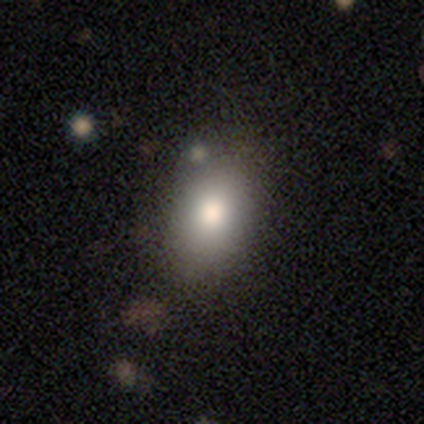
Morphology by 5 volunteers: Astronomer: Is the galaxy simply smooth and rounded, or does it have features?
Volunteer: smooth — 80%.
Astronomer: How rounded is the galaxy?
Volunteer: round — 50%, tied with in between at 50%.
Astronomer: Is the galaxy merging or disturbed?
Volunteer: none — 80%.